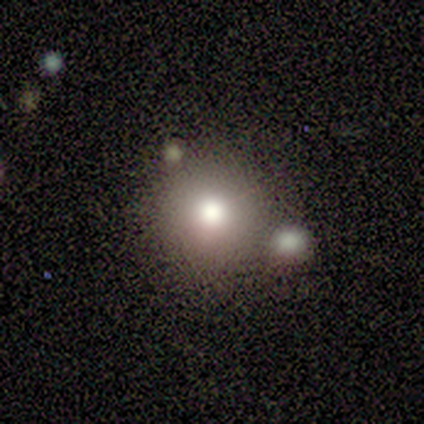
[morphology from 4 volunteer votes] Smooth or featured? 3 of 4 (75%) said smooth. How rounded? 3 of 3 (100%) said round. Merging? 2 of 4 (50%, tied with merger) said none.